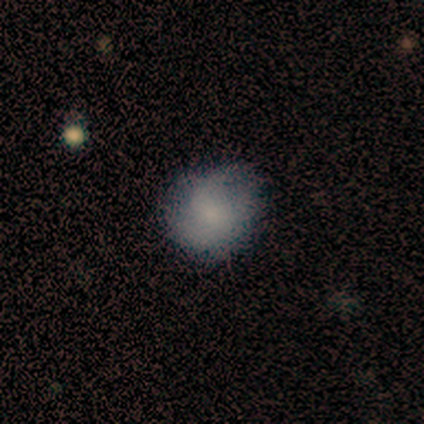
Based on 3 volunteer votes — This is clearly a smooth galaxy (100%). How rounded: clearly round (100%). Merging: likely minor disturbance (67%).